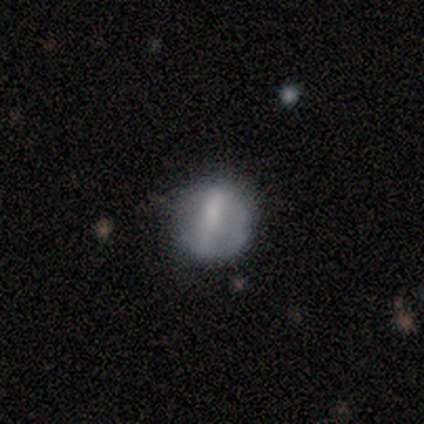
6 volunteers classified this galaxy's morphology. smooth-or-featured: smooth: 50% | featured or disk: 33% | star or artifact: 17%
  how-rounded: round: 67% | in between: 33% | cigar-shaped: 0%
  merging: none: 80% | major disturbance: 20% | minor disturbance: 0% | merger: 0%